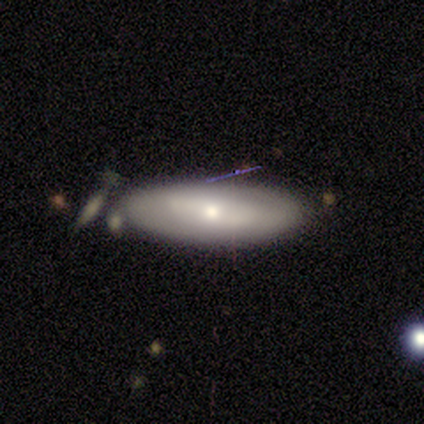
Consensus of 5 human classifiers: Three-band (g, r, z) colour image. It shows a smooth galaxy with no disk features (60%) that is in between round and cigar-shaped (67%). Merging: none (100%).